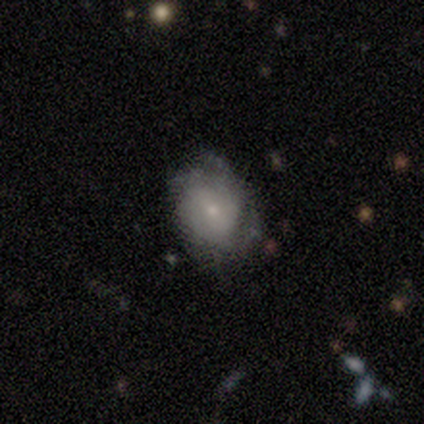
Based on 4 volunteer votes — This is possibly a smooth galaxy (50%, tied with featured or disk). How rounded: possibly round (50%, tied with in between). Merging: possibly none (50%, tied with minor disturbance).